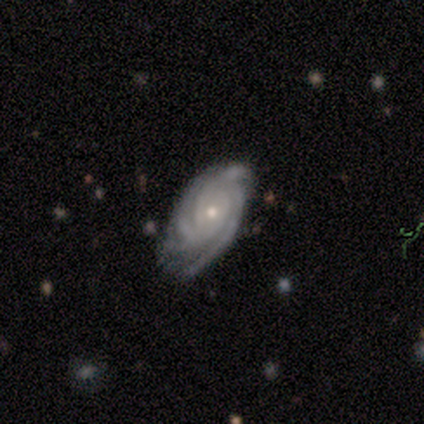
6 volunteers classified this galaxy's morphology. Smooth or featured: featured or disk — 67% (smooth — 33%)
Edge-on disk: no — 100%
Bar: no — 100%
Spiral arms: yes — 100%
Spiral winding: tight — 75% (medium — 25%)
Spiral arm count: 4 — 50% (2 — 25%)
Bulge size: small — 100%
Merging: minor disturbance — 67% (none — 33%)